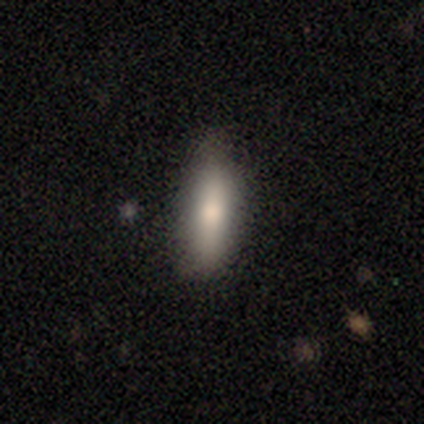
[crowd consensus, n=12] smooth-or-featured: smooth: 75% | featured or disk: 17% | star or artifact: 8%
  how-rounded: cigar-shaped: 56% | in between: 44% | round: 0%
  merging: none: 64% | minor disturbance: 36% | major disturbance: 0% | merger: 0%